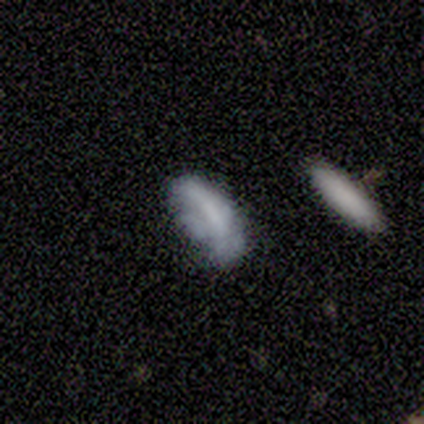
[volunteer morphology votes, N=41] Volunteers were most divided on "smooth or featured": smooth: 44%, featured or disk: 41%, star or artifact: 15%. Remaining: how rounded — in between (78%); merging — none (49%).